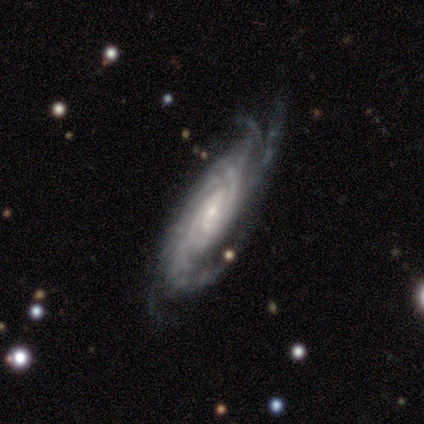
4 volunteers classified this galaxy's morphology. Volunteers were most divided on "bar": weak: 75%, no: 25%, strong: 0%. More confident: smooth or featured — featured or disk (100%); edge-on disk — no (100%); spiral arms — yes (100%); spiral winding — tight (100%); spiral arm count — more than 4 (75%); bulge size — small (75%); merging — none (75%).